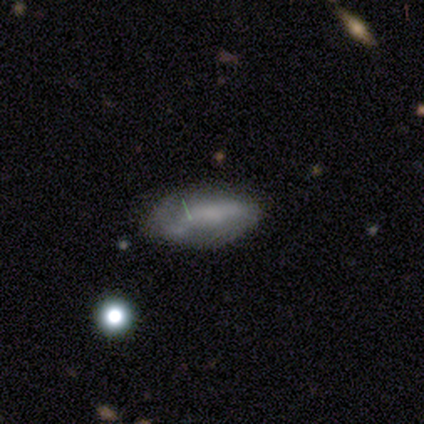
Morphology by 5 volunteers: smooth 60%, featured or disk 40%, star or artifact 0%. Down the decision tree: how rounded — in between (100%); merging — major disturbance (40%).